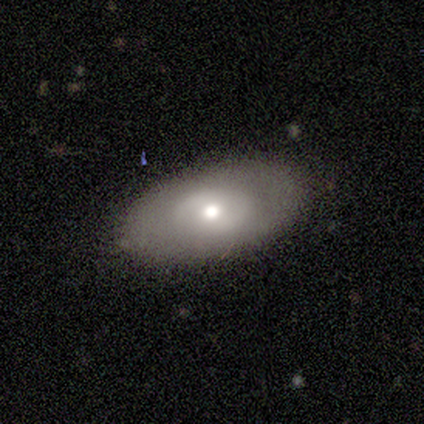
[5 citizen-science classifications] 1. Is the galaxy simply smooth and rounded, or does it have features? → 80% smooth, 20% featured or disk, 0% star or artifact.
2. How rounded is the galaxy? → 100% in between, 0% round, 0% cigar-shaped.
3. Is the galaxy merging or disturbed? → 100% none, 0% minor disturbance, 0% major disturbance, 0% merger.